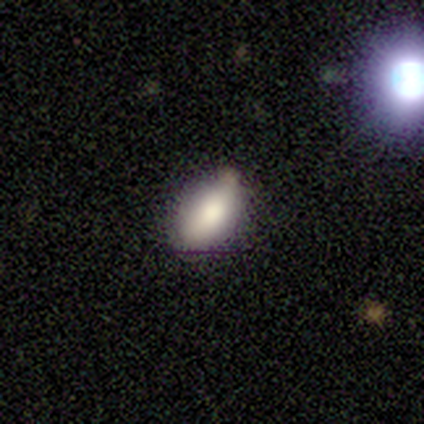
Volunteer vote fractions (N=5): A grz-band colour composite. It shows a smooth galaxy with no disk features (100%) that is in between round and cigar-shaped (100%). Merging: none (100%).